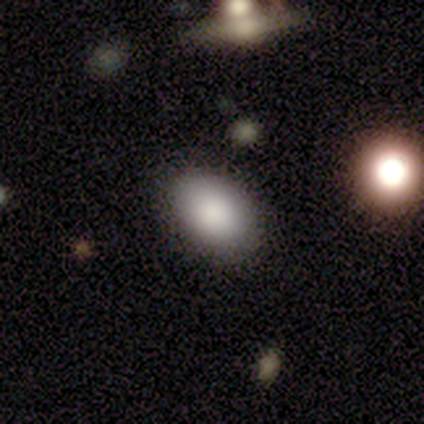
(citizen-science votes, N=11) smooth 82%, featured or disk 9%, star or artifact 9%. Down the decision tree: how rounded — in between (100%); merging — none (90%).